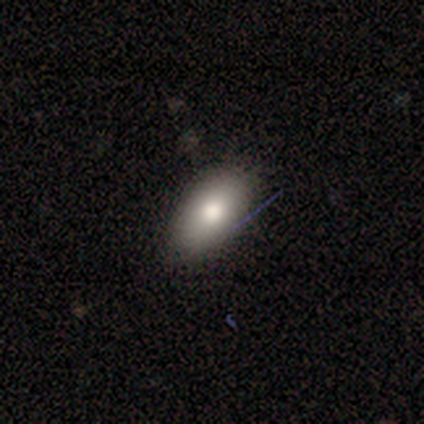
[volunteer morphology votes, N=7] type=smooth (100%); roundness=in between (100%); merging=none (86%).